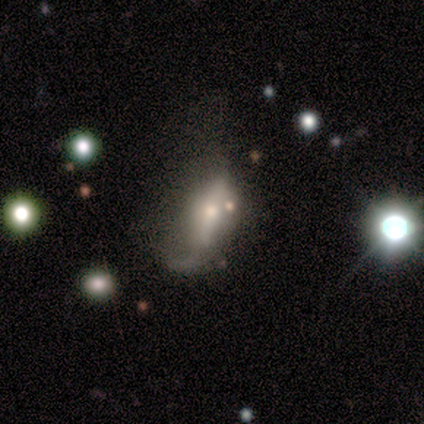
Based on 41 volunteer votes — Smooth or featured?
  - featured or disk: 44% *
  - smooth: 41%
  - star or artifact: 15%
Edge-on disk?
  - no: 78% *
  - yes: 22%
Bar?
  - no: 50% *
  - strong: 29%
  - weak: 21%
Spiral arms?
  - yes: 50% * (tied)
  - no: 50% * (tied)
Spiral winding?
  - loose: 86% *
  - medium: 14%
  - tight: 0%
Spiral arm count?
  - 1: 57% *
  - 2: 29%
  - can't tell: 14%
  - 3: 0%
  - 4: 0%
  - more than 4: 0%
Bulge size?
  - moderate: 57% *
  - small: 36%
  - large: 7%
  - dominant: 0%
  - none: 0%
Merging?
  - major disturbance: 40% *
  - minor disturbance: 31%
  - none: 23%
  - merger: 6%